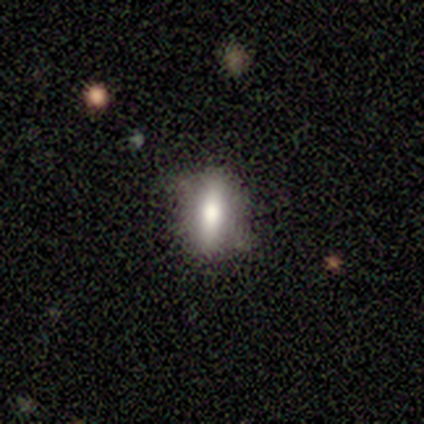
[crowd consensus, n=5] smooth_or_featured: smooth (p=0.60) [alt: featured or disk p=0.20]
how_rounded: in between (p=0.67) [alt: cigar-shaped p=0.33]
merging: none (p=0.50) [tied with: minor disturbance p=0.50]